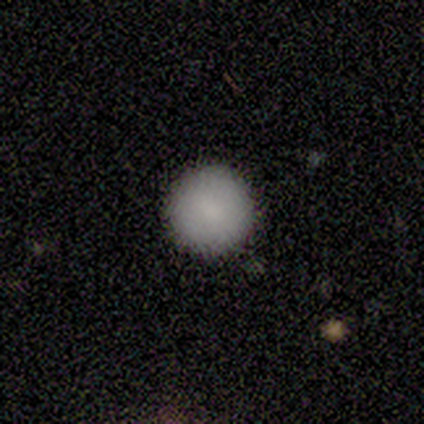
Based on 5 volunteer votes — A smooth galaxy with no disk features (80%) that is round (100%).

Vote fractions:
- Smooth or featured? smooth: 80% / star or artifact: 20% / featured or disk: 0%
- How rounded? round: 100% / in between: 0% / cigar-shaped: 0%
- Merging? none: 100% / minor disturbance: 0% / major disturbance: 0% / merger: 0%